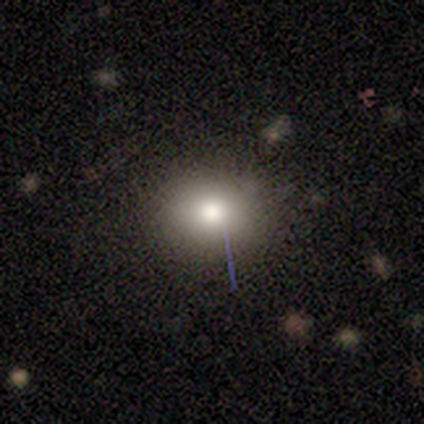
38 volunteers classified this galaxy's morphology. Overall: smooth (63%; star or artifact 24%). How rounded: round (67%; in between 33%). Merging: none (86%).